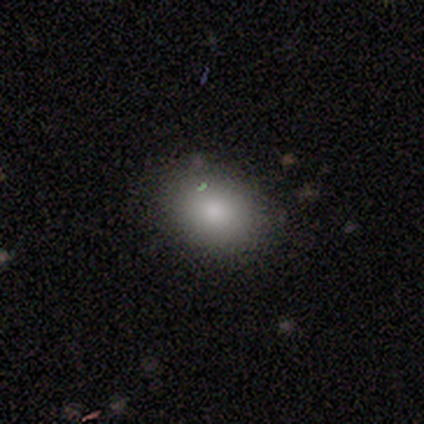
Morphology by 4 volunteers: Smooth or featured? smooth (100%)
How rounded? in between (75%)
Merging? none (75%)